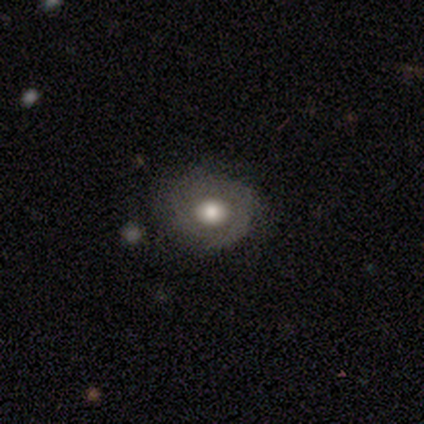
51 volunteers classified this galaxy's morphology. Overall: featured or disk (55%; smooth 39%). Edge-on disk: no (100%). Bar: no (100%). Spiral arms: no (71%). Bulge size: moderate (57%; large 32%). Merging: none (71%).